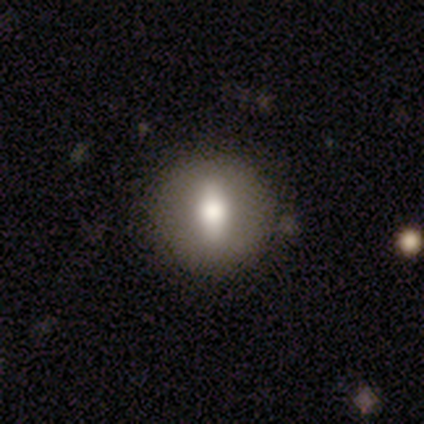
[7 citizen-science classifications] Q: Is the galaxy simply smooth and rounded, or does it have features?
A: smooth — 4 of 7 (57%).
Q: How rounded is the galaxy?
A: round — 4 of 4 (100%).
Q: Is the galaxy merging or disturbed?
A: none — 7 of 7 (100%).